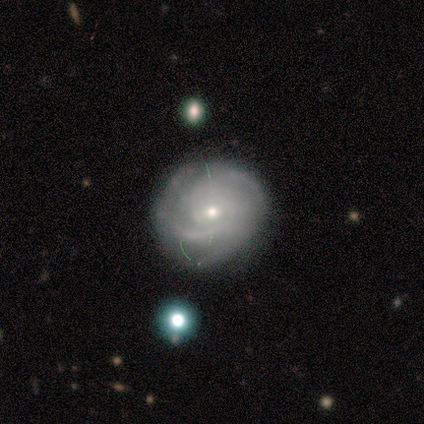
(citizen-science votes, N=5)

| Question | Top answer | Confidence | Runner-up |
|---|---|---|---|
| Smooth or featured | featured or disk | 100% | — |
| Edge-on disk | no | 100% | — |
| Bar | weak | 60% | no (40%) |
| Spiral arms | yes | 100% | — |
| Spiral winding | tight | 80% | medium (20%) |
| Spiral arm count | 2 | 60% | 3 (40%) |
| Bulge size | small | 60% | moderate (40%) |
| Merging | none | 80% | minor disturbance (20%) |